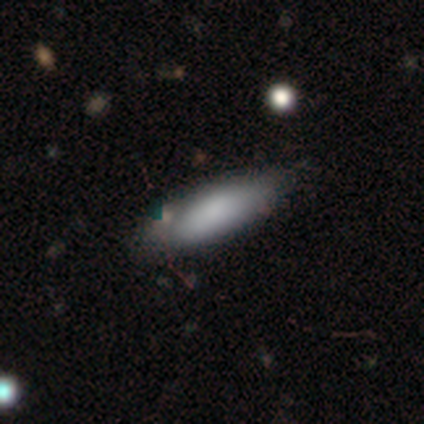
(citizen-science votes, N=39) Overall: smooth (74%). How rounded: in between (59%; cigar-shaped 41%). Merging: none (30%; minor disturbance 14%).